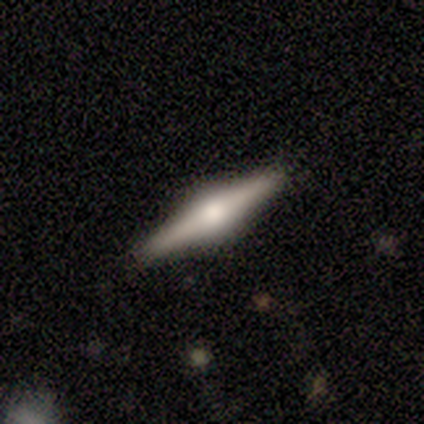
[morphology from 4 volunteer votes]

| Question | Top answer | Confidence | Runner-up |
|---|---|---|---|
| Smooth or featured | featured or disk | 100% | — |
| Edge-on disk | yes | 100% | — |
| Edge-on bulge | rounded | 100% | — |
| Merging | none | 100% | — |